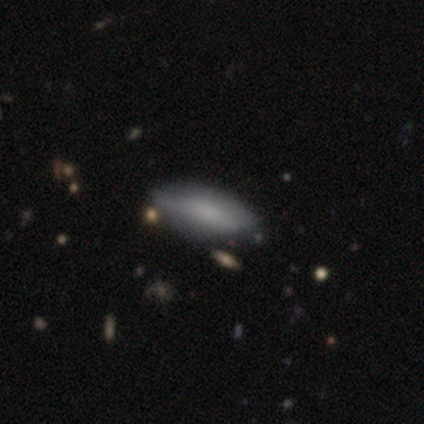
Overall: smooth (57%; featured or disk 42%). How rounded: in between (91%). Merging: none (40%; minor disturbance 22%).